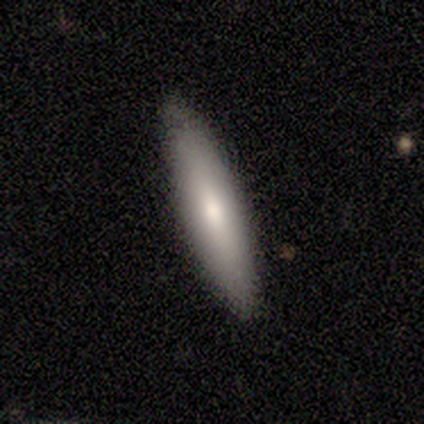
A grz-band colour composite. It shows a smooth galaxy with no disk features (57%) that is cigar-shaped (75%). Merging: none (71%).